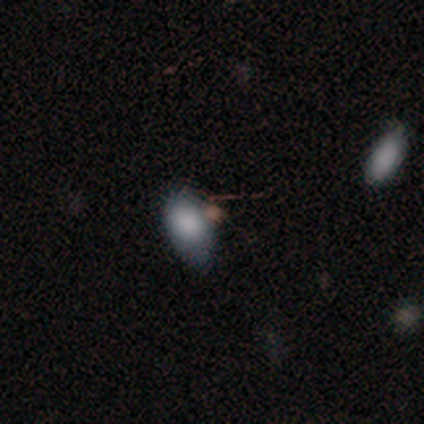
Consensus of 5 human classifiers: A smooth galaxy with no disk features (60%) that is in between round and cigar-shaped (67%).

Vote fractions:
- Smooth or featured? smooth: 60% / featured or disk: 20% / star or artifact: 20%
- How rounded? in between: 67% / round: 33% / cigar-shaped: 0%
- Merging? none: 50% / minor disturbance: 25% / merger: 25% / major disturbance: 0%